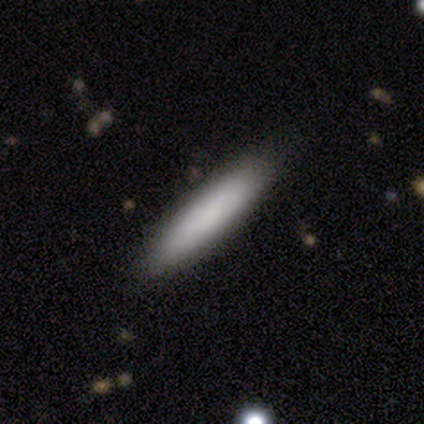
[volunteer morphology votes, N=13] A smooth galaxy with no disk features (92%) that is cigar-shaped (92%).

Vote fractions:
- Smooth or featured? smooth: 92% / featured or disk: 8% / star or artifact: 0%
- How rounded? cigar-shaped: 92% / in between: 8% / round: 0%
- Merging? none: 92% / minor disturbance: 8% / major disturbance: 0% / merger: 0%